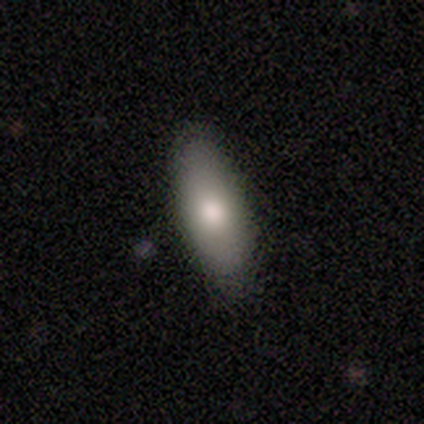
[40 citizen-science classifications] This is likely a smooth galaxy (78%). How rounded: likely in between (74%). Merging: clearly none (89%).